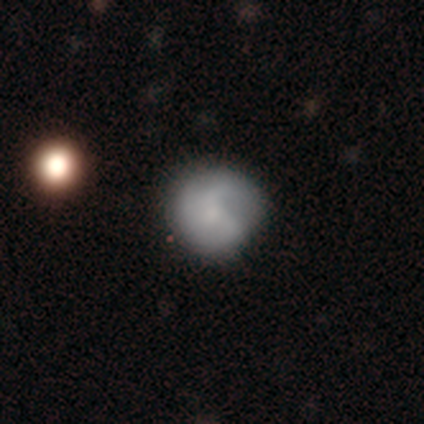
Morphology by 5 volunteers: Smooth or featured?
  - featured or disk: 60% *
  - smooth: 40%
  - star or artifact: 0%
Edge-on disk?
  - no: 100% *
  - yes: 0%
Bar?
  - no: 67% *
  - weak: 33%
  - strong: 0%
Spiral arms?
  - yes: 100% *
  - no: 0%
Spiral winding?
  - loose: 67% *
  - medium: 33%
  - tight: 0%
Spiral arm count?
  - 3: 67% *
  - can't tell: 33%
  - 1: 0%
  - 2: 0%
  - 4: 0%
  - more than 4: 0%
Bulge size?
  - moderate: 33% * (tied)
  - small: 33% * (tied)
  - none: 33% * (tied)
  - dominant: 0%
  - large: 0%
Merging?
  - none: 80% *
  - minor disturbance: 20%
  - major disturbance: 0%
  - merger: 0%